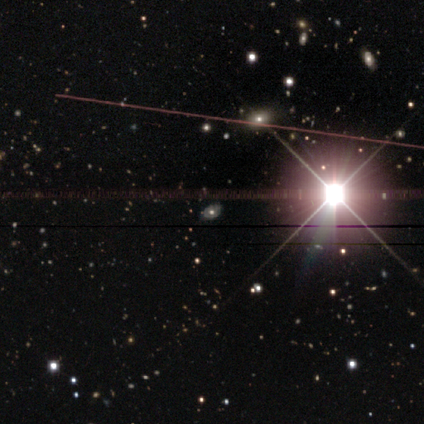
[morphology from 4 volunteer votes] star or artifact 75%, smooth 25%, featured or disk 0%.